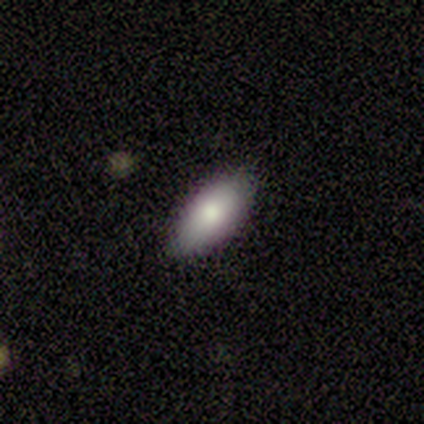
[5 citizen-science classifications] A smooth galaxy with no disk features (80%) that is in between round and cigar-shaped (100%). Merging: none (75%).